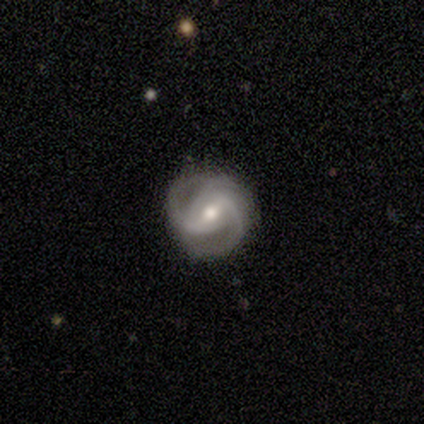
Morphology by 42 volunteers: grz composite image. It shows a featured or disk galaxy (98%) with a weak bar (59%), 3 (51%) medium (49%) spiral arms (100%) and a moderate central bulge (68%). Merging: none (80%).